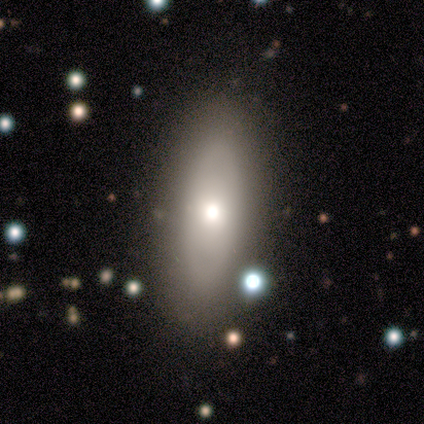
Overall: smooth (40%, tied with featured or disk). How rounded: in between (100%). Merging: none (100%).